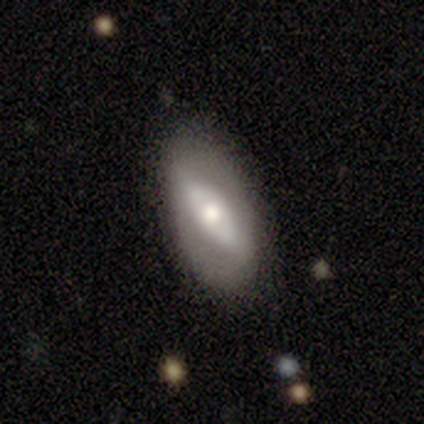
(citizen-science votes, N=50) Smooth or featured? 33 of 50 (66%) said featured or disk. Edge-on disk? 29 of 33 (88%) said no. Bar? 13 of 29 (45%) said no. Spiral arms? 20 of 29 (69%) said no. Bulge size? 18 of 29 (62%) said moderate. Merging? 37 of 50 (74%) said none.